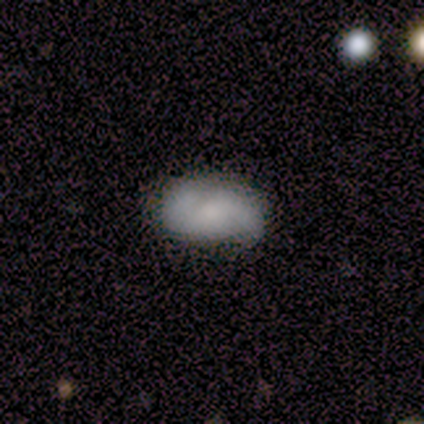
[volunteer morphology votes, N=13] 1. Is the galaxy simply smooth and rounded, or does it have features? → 54% smooth, 46% featured or disk, 0% star or artifact.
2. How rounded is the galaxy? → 100% in between, 0% round, 0% cigar-shaped.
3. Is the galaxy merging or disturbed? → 92% none, 8% minor disturbance, 0% major disturbance, 0% merger.